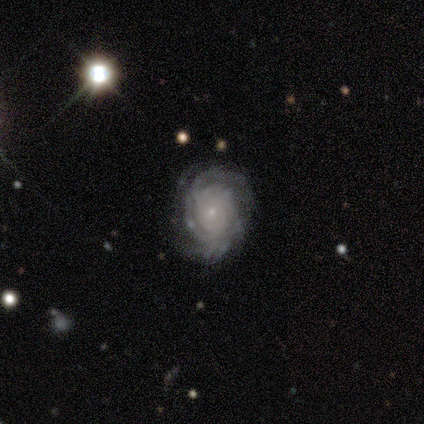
Volunteers were most divided on "spiral arm count": 3: 33%, 2: 22%, more than 4: 22%, 4: 11%, can't tell: 11%, 1: 0%. More confident: smooth or featured — featured or disk (100%); edge-on disk — no (100%); spiral arms — yes (100%); bar — no (89%); bulge size — small (89%); spiral winding — tight (78%); merging — none (78%).